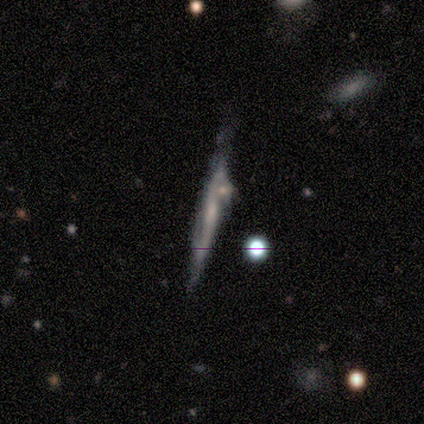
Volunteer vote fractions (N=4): Overall: smooth (50%, tied with featured or disk). How rounded: cigar-shaped (100%). Merging: none (50%; major disturbance 25%).